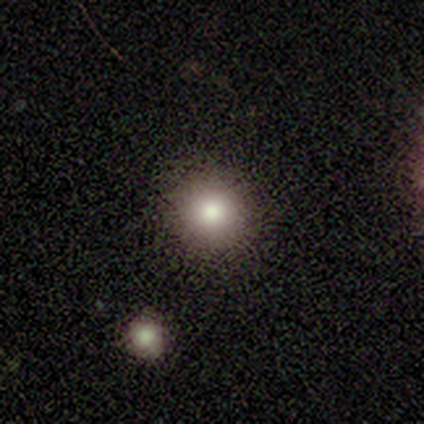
smooth_or_featured: smooth (p=0.70) [alt: star or artifact p=0.20]
how_rounded: round (p=1.00)
merging: none (p=0.88) [alt: minor disturbance p=0.09]